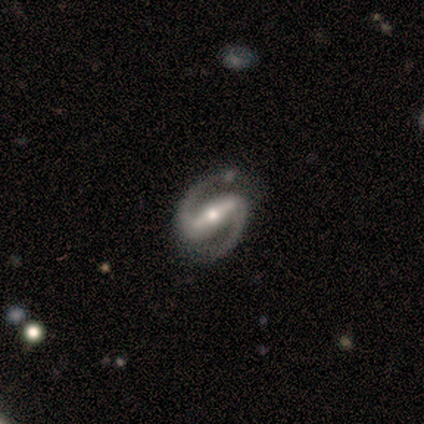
Q: Smooth or featured?
A: featured or disk (100%)
Q: Edge-on disk?
A: no (100%)
Q: Bar?
A: strong (60%); runner-up: weak (40%)
Q: Spiral arms?
A: yes (100%)
Q: Spiral winding?
A: medium (60%); runner-up: tight (20%)
Q: Spiral arm count?
A: 2 (100%)
Q: Bulge size?
A: moderate (60%); runner-up: large (20%)
Q: Merging?
A: none (100%)